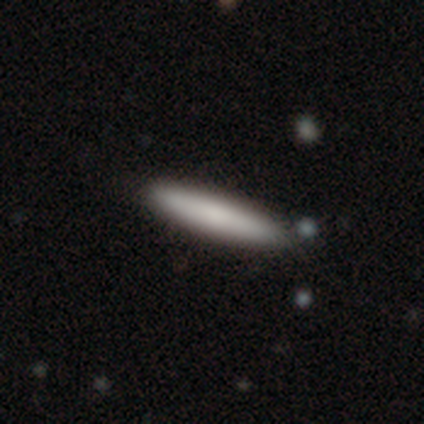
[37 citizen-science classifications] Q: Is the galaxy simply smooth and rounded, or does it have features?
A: smooth — 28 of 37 (76%).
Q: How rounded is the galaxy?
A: cigar-shaped — 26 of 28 (93%).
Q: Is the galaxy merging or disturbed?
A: none — 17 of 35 (49%).